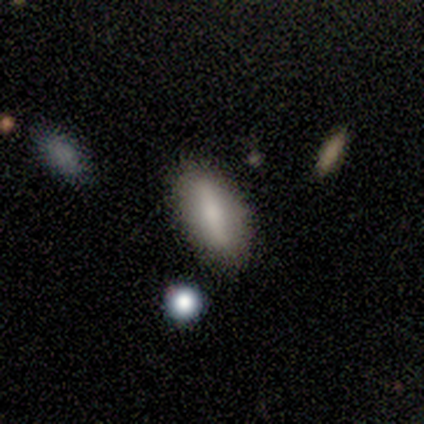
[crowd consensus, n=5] Morphology: type=smooth (60%); roundness=in between (67%); merging=none (80%).